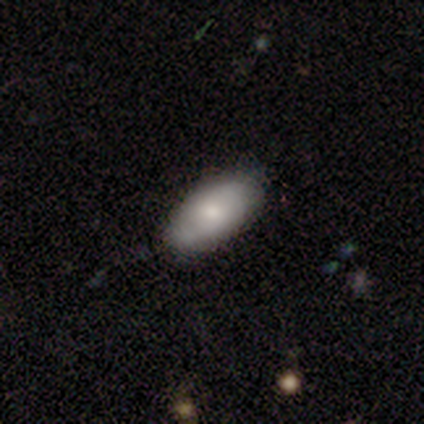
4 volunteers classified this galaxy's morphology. Overall: smooth (50%, tied with star or artifact). How rounded: in between (100%). Merging: none (100%).